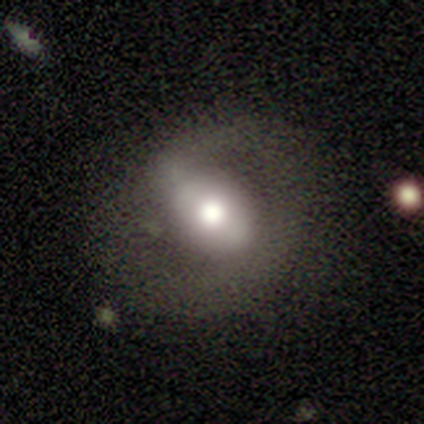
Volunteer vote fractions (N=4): smooth_or_featured: featured or disk (p=0.75) [alt: smooth p=0.25]
disk_edge_on: no (p=0.67) [alt: yes p=0.33]
bar: weak (p=0.50) [tied with: no p=0.50]
has_spiral_arms: yes (p=1.00)
spiral_winding: loose (p=1.00)
spiral_arm_count: 2 (p=0.50) [tied with: can't tell p=0.50]
bulge_size: large (p=1.00)
merging: none (p=1.00)